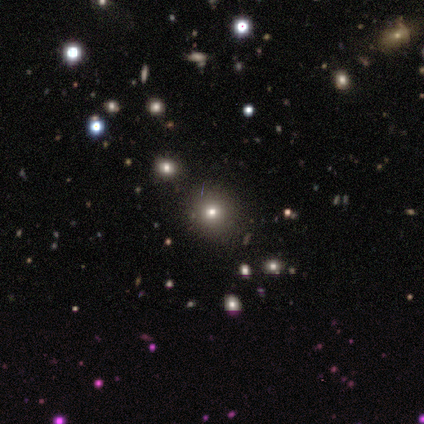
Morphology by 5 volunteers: Smooth or featured? star or artifact (60%)